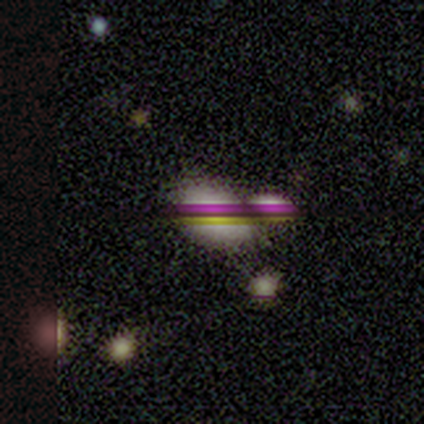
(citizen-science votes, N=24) This is possibly a smooth galaxy (50%). How rounded: clearly in between (92%). Merging: possibly merger (50%).